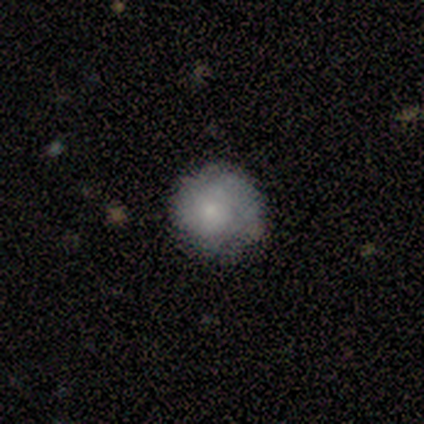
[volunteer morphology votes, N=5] Smooth or featured: smooth — 80% (star or artifact — 20%)
How rounded: round — 75% (in between — 25%)
Merging: none — 100%